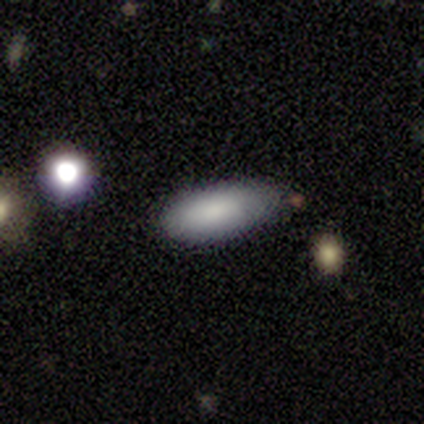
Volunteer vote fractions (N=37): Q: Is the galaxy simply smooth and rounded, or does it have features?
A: smooth — 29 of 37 (78%).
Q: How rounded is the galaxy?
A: in between — 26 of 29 (90%).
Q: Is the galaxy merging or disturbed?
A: none — 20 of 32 (62%).